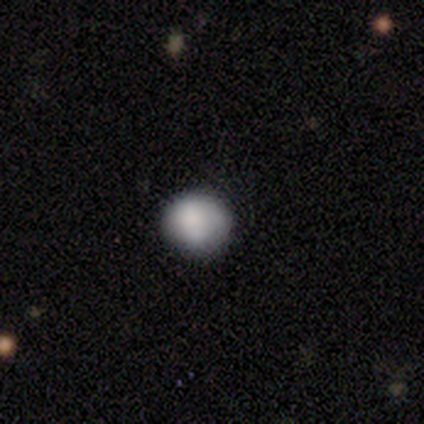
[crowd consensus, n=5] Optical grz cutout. It shows a smooth galaxy with no disk features (80%) that is round (75%). Merging: none (100%).